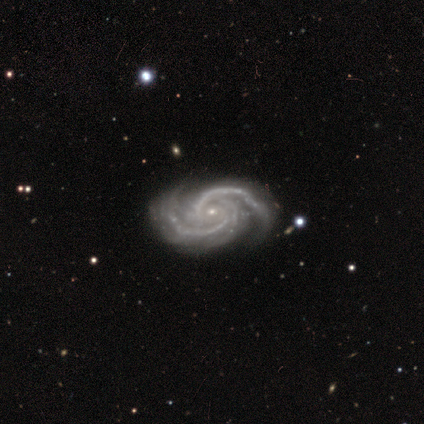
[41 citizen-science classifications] This appears to be a featured or disk galaxy (98%) with no bar (74%), 2 (67%) tight (46%, tied with medium) spiral arms (100%) and a small central bulge (85%). Merging: none (57%).